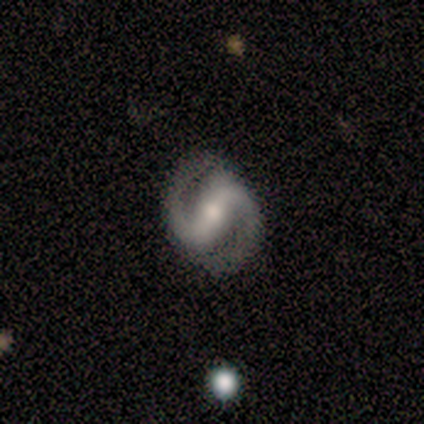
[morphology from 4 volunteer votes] A featured or disk galaxy (100%) with a strong bar (100%), 2 (100%) medium (75%) spiral arms (100%) and a moderate central bulge (100%).

Vote fractions:
- Smooth or featured? featured or disk: 100% / smooth: 0% / star or artifact: 0%
- Edge-on disk? no: 100% / yes: 0%
- Bar? strong: 100% / weak: 0% / no: 0%
- Spiral arms? yes: 100% / no: 0%
- Spiral winding? medium: 75% / loose: 25% / tight: 0%
- Spiral arm count? 2: 100% / 1: 0% / 3: 0% / 4: 0% / more than 4: 0% / can't tell: 0%
- Bulge size? moderate: 100% / dominant: 0% / large: 0% / small: 0% / none: 0%
- Merging? none: 75% / minor disturbance: 25% / major disturbance: 0% / merger: 0%